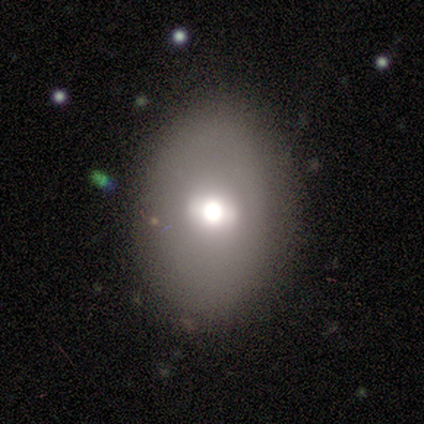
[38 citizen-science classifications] Volunteers were most divided on "smooth or featured": smooth: 50%, featured or disk: 34%, star or artifact: 16%. More confident: how rounded — in between (95%); merging — none (84%).